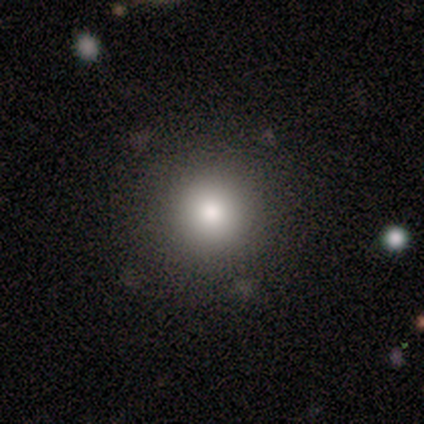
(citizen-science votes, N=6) Smooth or featured? smooth (83%)
How rounded? round (100%)
Merging? none (100%)